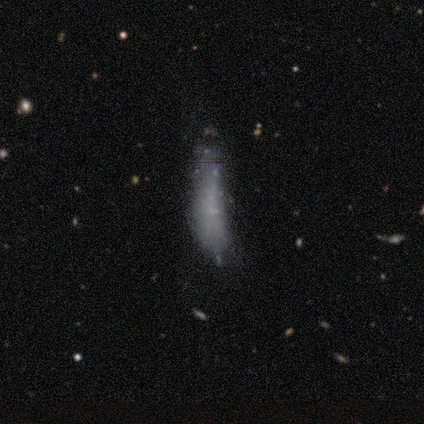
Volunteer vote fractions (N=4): This appears to be a featured or disk galaxy (75%) with no bar (100%), no spiral arms (100%) and no central bulge (100%). Merging: none (50%).